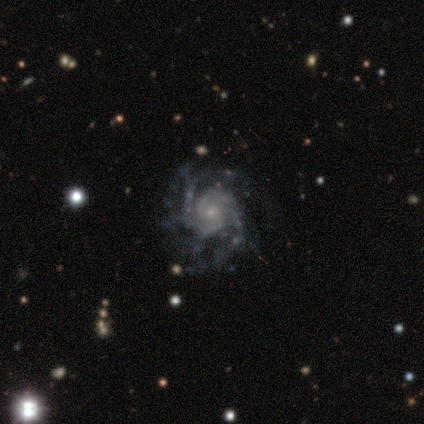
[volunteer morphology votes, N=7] Q: Smooth or featured?
A: featured or disk (100%)
Q: Edge-on disk?
A: no (100%)
Q: Bar?
A: no (71%); runner-up: weak (29%)
Q: Spiral arms?
A: yes (100%)
Q: Spiral winding?
A: tight (57%); runner-up: loose (29%)
Q: Spiral arm count?
A: can't tell (43%); runner-up: 2 (29%)
Q: Bulge size?
A: small (100%)
Q: Merging?
A: none (57%); runner-up: minor disturbance (29%)